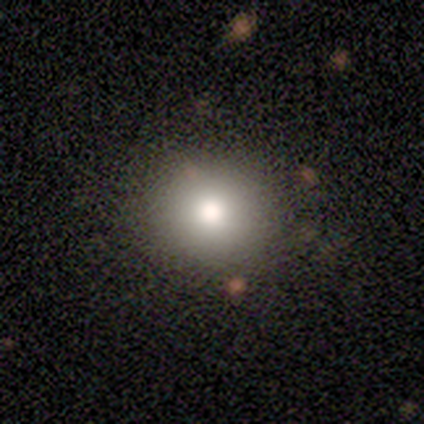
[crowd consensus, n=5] Morphology: type=smooth (100%); roundness=round (100%); merging=none (100%).